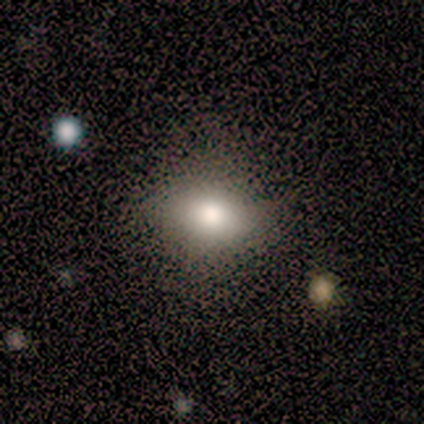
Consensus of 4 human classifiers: Smooth or featured?
  - smooth: 100% *
  - featured or disk: 0%
  - star or artifact: 0%
How rounded?
  - in between: 100% *
  - round: 0%
  - cigar-shaped: 0%
Merging?
  - none: 50% * (tied)
  - minor disturbance: 50% * (tied)
  - major disturbance: 0%
  - merger: 0%